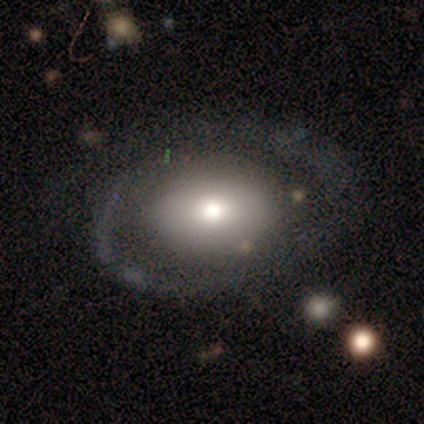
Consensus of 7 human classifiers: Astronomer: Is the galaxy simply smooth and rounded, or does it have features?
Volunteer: featured or disk — 71%.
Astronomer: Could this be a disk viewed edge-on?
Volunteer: no — 100%.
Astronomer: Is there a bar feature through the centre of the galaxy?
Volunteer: no — 100%.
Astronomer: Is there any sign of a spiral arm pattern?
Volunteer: no — 60% (runner-up: yes, 40%).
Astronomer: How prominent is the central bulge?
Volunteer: moderate — 60%.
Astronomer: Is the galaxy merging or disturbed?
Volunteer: none — 57%.